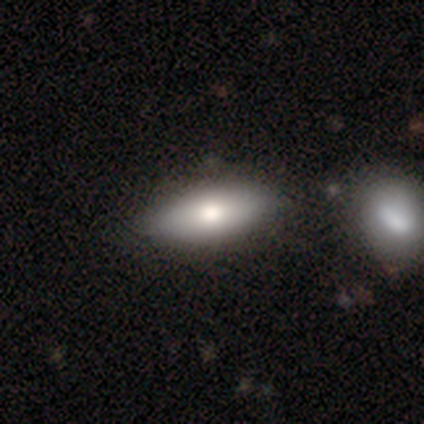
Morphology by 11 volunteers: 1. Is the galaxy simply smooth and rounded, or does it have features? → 82% smooth, 9% featured or disk, 9% star or artifact.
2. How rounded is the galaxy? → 78% in between, 22% cigar-shaped, 0% round.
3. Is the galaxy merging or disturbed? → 100% none, 0% minor disturbance, 0% major disturbance, 0% merger.